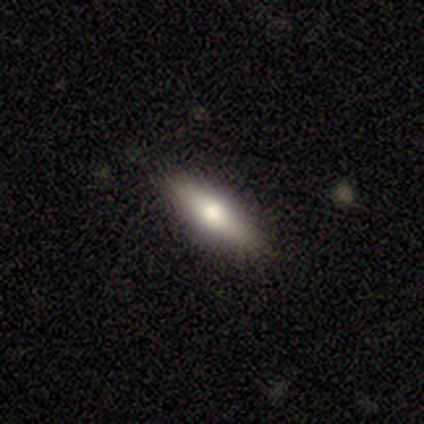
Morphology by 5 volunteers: Smooth or featured? 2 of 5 (40%, tied with featured or disk) said smooth. How rounded? 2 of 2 (100%) said cigar-shaped. Merging? 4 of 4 (100%) said none.